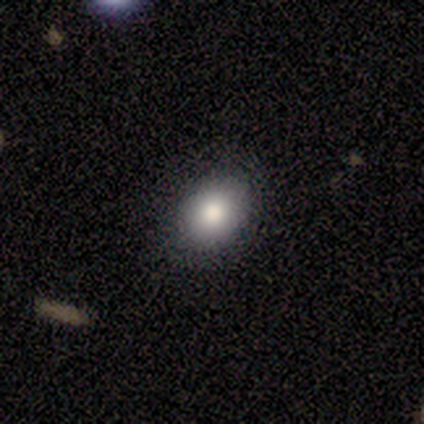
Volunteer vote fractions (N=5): Smooth or featured? smooth (60%)
How rounded? round (67%)
Merging? none (100%)